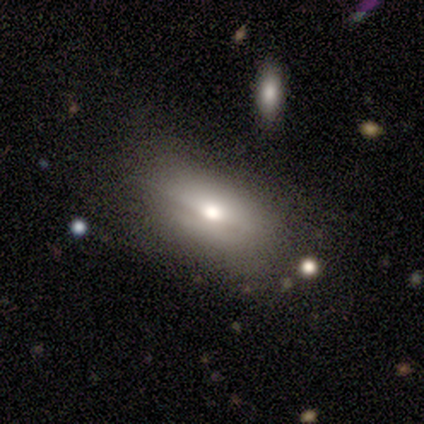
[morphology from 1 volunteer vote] A smooth galaxy with no disk features (100%) that is in between round and cigar-shaped (100%). Merging: none (100%).